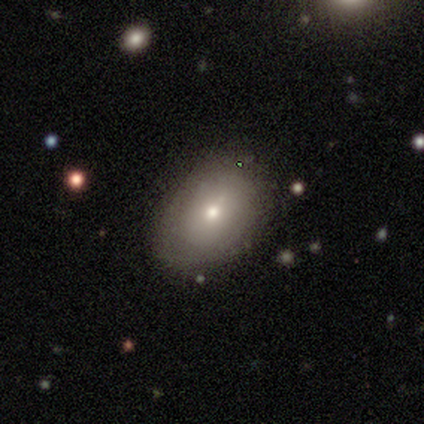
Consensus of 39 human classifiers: Volunteers were most divided on "smooth or featured": smooth: 51%, featured or disk: 36%, star or artifact: 13%. More confident: how rounded — in between (80%); merging — none (71%).